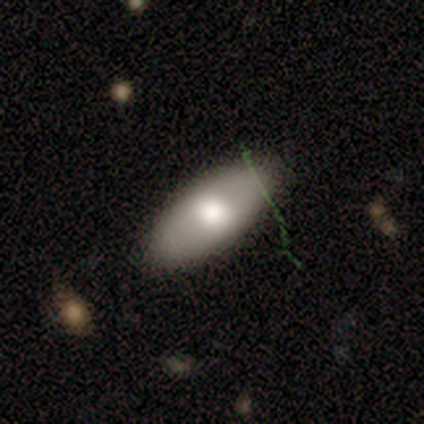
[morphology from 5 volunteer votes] This is clearly a smooth galaxy (80%). How rounded: likely in between (75%). Merging: clearly none (100%).